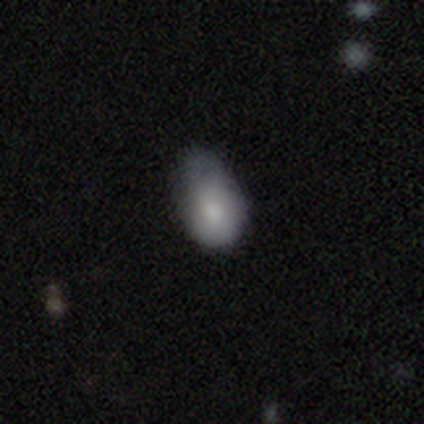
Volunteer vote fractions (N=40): Smooth or featured? smooth (75%)
How rounded? in between (73%)
Merging? minor disturbance (55%)